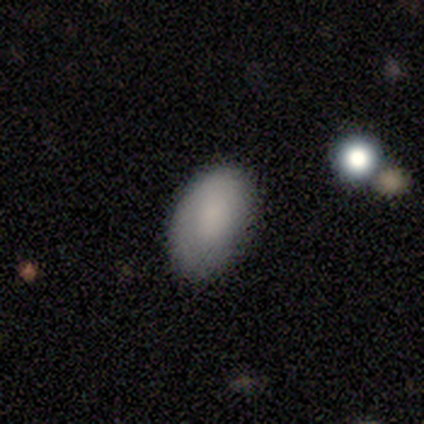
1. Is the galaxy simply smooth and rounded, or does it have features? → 80% smooth, 20% featured or disk, 0% star or artifact.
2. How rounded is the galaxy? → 100% in between, 0% round, 0% cigar-shaped.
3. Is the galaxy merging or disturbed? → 60% none, 40% minor disturbance, 0% major disturbance, 0% merger.